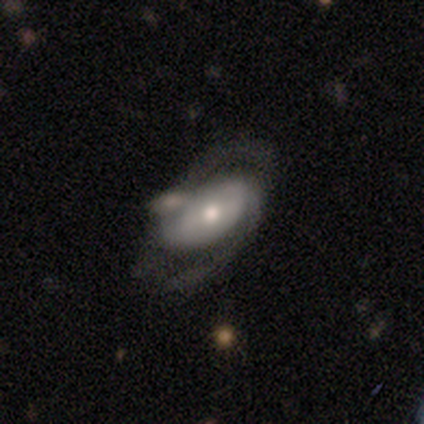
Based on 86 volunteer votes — This is likely a featured or disk galaxy (67%). It is clearly not viewed edge-on (97%). Bar: possibly no (52%). Spiral arm pattern: clearly yes (80%). Spiral arm count: clearly 2 (87%). Spiral winding: possibly medium (47%). Central bulge: possibly moderate (55%). Merging: possibly none (47%).